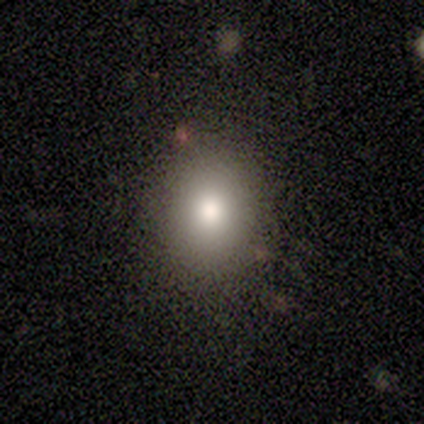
This is clearly a smooth galaxy (100%). How rounded: clearly in between (100%). Merging: clearly none (100%).